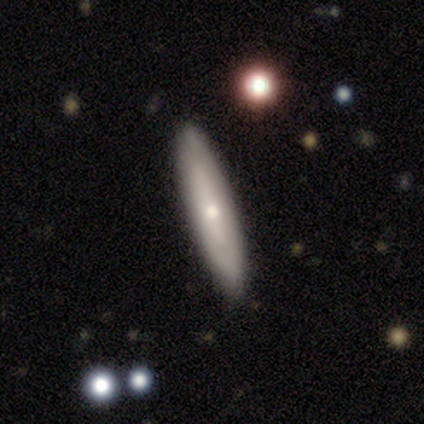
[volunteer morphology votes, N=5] A smooth galaxy with no disk features (60%) that is round (33%, tied with in between and cigar-shaped).

Vote fractions:
- Smooth or featured? smooth: 60% / featured or disk: 40% / star or artifact: 0%
- How rounded? round: 33% (tied) / in between: 33% (tied) / cigar-shaped: 33% (tied)
- Merging? none: 80% / minor disturbance: 20% / major disturbance: 0% / merger: 0%